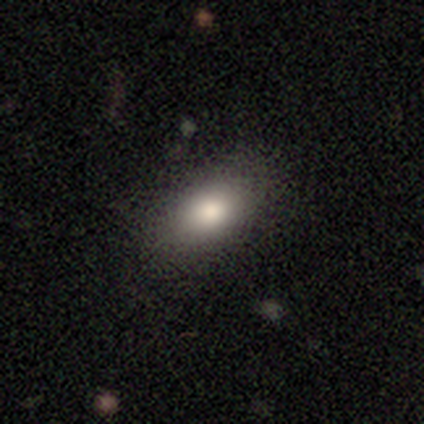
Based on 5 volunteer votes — Smooth or featured?
  - smooth: 100% *
  - featured or disk: 0%
  - star or artifact: 0%
How rounded?
  - in between: 100% *
  - round: 0%
  - cigar-shaped: 0%
Merging?
  - none: 100% *
  - minor disturbance: 0%
  - major disturbance: 0%
  - merger: 0%